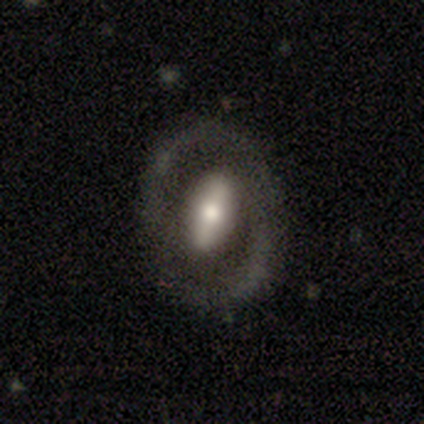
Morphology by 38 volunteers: Q: Smooth or featured?
A: featured or disk (68%); runner-up: smooth (29%)
Q: Edge-on disk?
A: no (96%); runner-up: yes (4%)
Q: Bar?
A: strong (60%); runner-up: no (24%)
Q: Spiral arms?
A: no (52%); runner-up: yes (48%)
Q: Bulge size?
A: moderate (52%); runner-up: large (32%)
Q: Merging?
A: none (65%); runner-up: minor disturbance (3%)